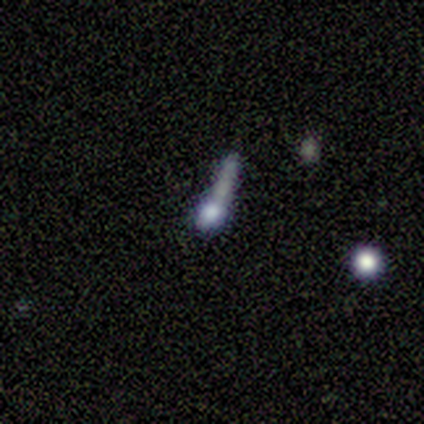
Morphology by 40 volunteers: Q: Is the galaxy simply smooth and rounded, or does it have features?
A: featured or disk — 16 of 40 (40%).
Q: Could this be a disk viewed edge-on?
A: no — 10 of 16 (62%).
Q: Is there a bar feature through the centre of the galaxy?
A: no — 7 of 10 (70%).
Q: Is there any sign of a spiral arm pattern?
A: no — 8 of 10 (80%).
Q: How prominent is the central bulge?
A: none — 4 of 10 (40%).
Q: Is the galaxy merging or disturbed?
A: major disturbance — 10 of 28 (36%).